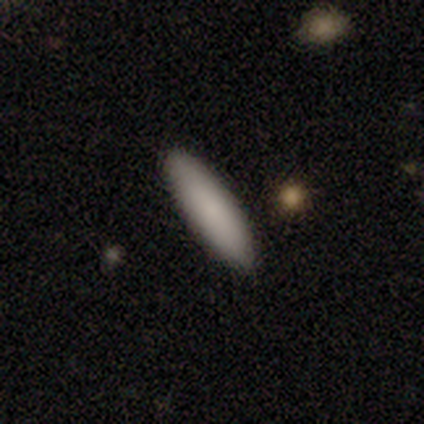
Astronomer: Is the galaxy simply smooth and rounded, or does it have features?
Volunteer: smooth — 92%.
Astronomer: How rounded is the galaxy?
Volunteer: cigar-shaped — 56% (runner-up: in between, 44%).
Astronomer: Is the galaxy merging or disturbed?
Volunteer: none — 51%.